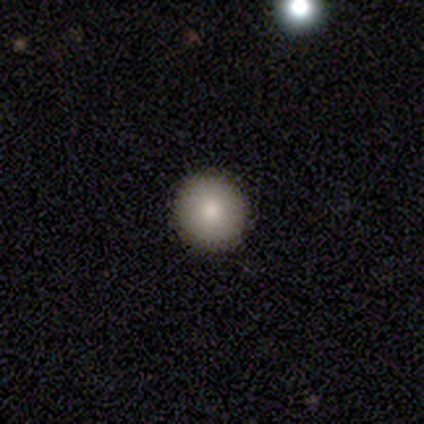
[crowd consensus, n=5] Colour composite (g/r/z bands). It shows a smooth galaxy with no disk features (80%) that is round (75%). Merging: none (100%).